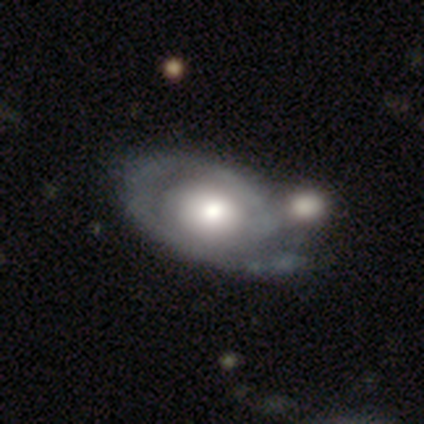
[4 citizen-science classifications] smooth-or-featured: featured or disk: 100% | smooth: 0% | star or artifact: 0%
  disk-edge-on: no: 100% | yes: 0%
    bar: no: 100% | strong: 0% | weak: 0%
    has-spiral-arms: no: 75% | yes: 25%
    bulge-size: moderate: 75% | dominant: 25% | large: 0% | small: 0% | none: 0%
  merging: none: 50% (tied) | major disturbance: 50% (tied) | minor disturbance: 0% | merger: 0%